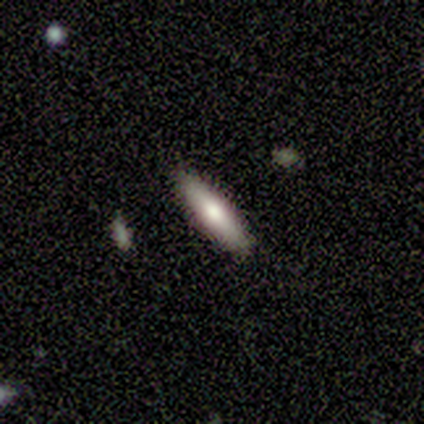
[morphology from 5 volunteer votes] A featured or disk galaxy (60%) viewed edge-on (100%) with a rounded central bulge (100%). Merging: none (100%).